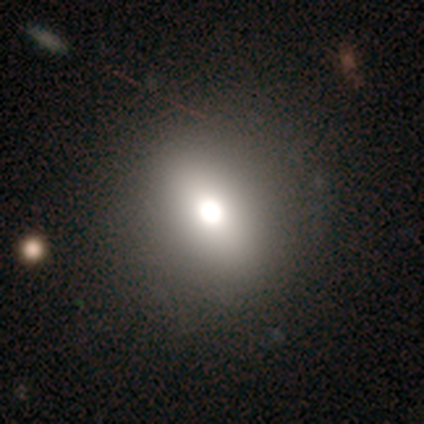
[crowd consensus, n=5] smooth 80%, star or artifact 20%, featured or disk 0%. Down the decision tree: how rounded — round (75%); merging — none (75%).